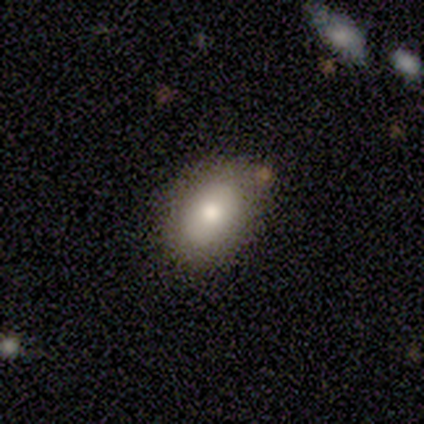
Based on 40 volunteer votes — smooth_or_featured: smooth (p=0.78) [alt: star or artifact p=0.12]
how_rounded: in between (p=0.87) [alt: round p=0.13]
merging: none (p=0.86) [alt: minor disturbance p=0.14]